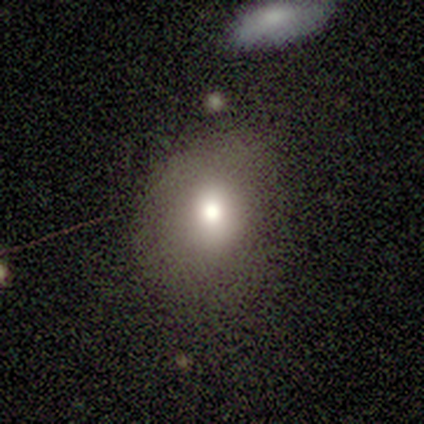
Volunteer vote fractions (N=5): Volunteers were most divided on "how rounded": round: 75%, in between: 25%, cigar-shaped: 0%. More confident: smooth or featured — smooth (80%); merging — none (75%).